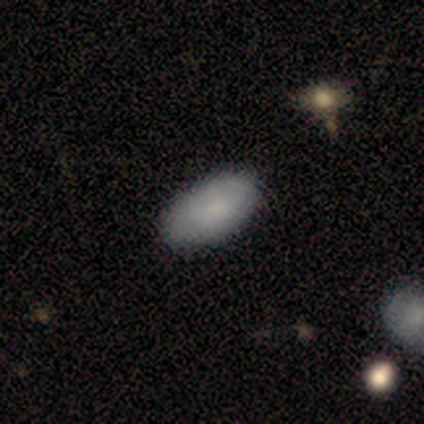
Q: Smooth or featured?
A: smooth (100%)
Q: How rounded?
A: in between (100%)
Q: Merging?
A: none (88%); runner-up: minor disturbance (12%)